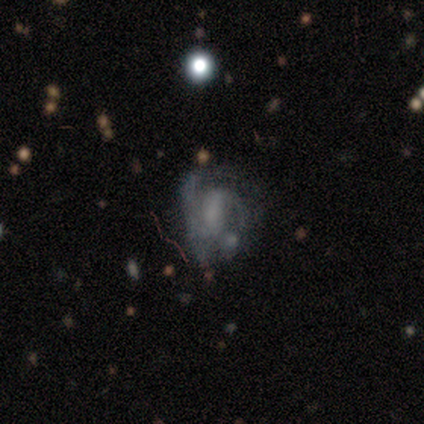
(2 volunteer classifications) A featured or disk galaxy (100%) with a strong bar (50%, tied with no), 2 (100%) medium (100%) spiral arms (50%, tied with no) and a small central bulge (50%, tied with none).

Vote fractions:
- Smooth or featured? featured or disk: 100% / smooth: 0% / star or artifact: 0%
- Edge-on disk? no: 100% / yes: 0%
- Bar? strong: 50% (tied) / no: 50% (tied) / weak: 0%
- Spiral arms? yes: 50% (tied) / no: 50% (tied)
- Spiral winding? medium: 100% / tight: 0% / loose: 0%
- Spiral arm count? 2: 100% / 1: 0% / 3: 0% / 4: 0% / more than 4: 0% / can't tell: 0%
- Bulge size? small: 50% (tied) / none: 50% (tied) / dominant: 0% / large: 0% / moderate: 0%
- Merging? none: 50% (tied) / major disturbance: 50% (tied) / minor disturbance: 0% / merger: 0%